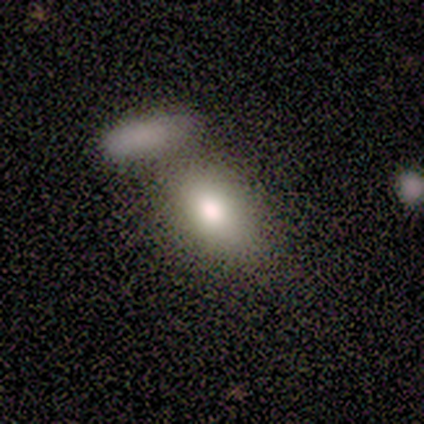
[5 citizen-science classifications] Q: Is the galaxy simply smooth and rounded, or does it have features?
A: smooth — 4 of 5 (80%).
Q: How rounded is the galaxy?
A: in between — 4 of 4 (100%).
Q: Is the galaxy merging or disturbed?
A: none — 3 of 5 (60%).